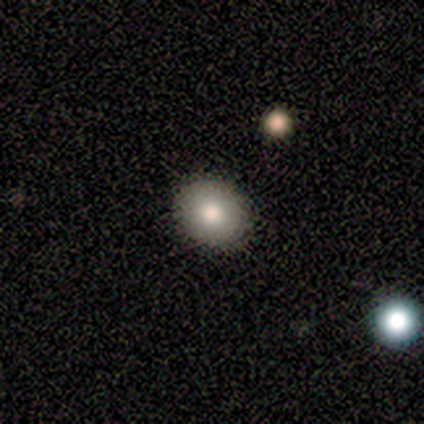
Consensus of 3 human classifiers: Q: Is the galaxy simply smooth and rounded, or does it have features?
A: smooth — 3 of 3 (100%).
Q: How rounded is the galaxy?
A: round — 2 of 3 (67%).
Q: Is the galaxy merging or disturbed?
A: none — 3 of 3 (100%).